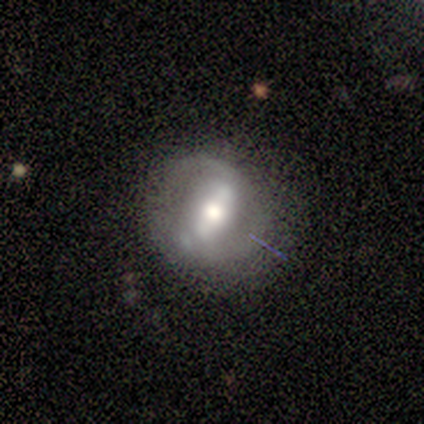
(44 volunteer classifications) Smooth or featured?
  - featured or disk: 75% *
  - smooth: 16%
  - star or artifact: 9%
Edge-on disk?
  - no: 100% *
  - yes: 0%
Bar?
  - strong: 70% *
  - weak: 18%
  - no: 12%
Spiral arms?
  - yes: 67% *
  - no: 33%
Spiral winding?
  - medium: 50% *
  - loose: 27%
  - tight: 23%
Spiral arm count?
  - 2: 82% *
  - can't tell: 14%
  - 1: 5%
  - 3: 0%
  - 4: 0%
  - more than 4: 0%
Bulge size?
  - moderate: 67% *
  - large: 21%
  - small: 12%
  - dominant: 0%
  - none: 0%
Merging?
  - none: 60% *
  - minor disturbance: 32%
  - major disturbance: 8%
  - merger: 0%